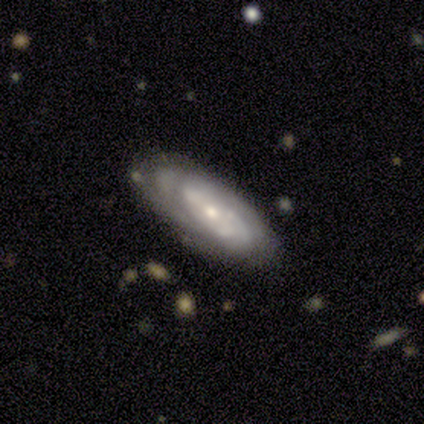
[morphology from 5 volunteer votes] Smooth or featured?
  - smooth: 60% *
  - featured or disk: 40%
  - star or artifact: 0%
How rounded?
  - in between: 100% *
  - round: 0%
  - cigar-shaped: 0%
Merging?
  - none: 80% *
  - major disturbance: 20%
  - minor disturbance: 0%
  - merger: 0%